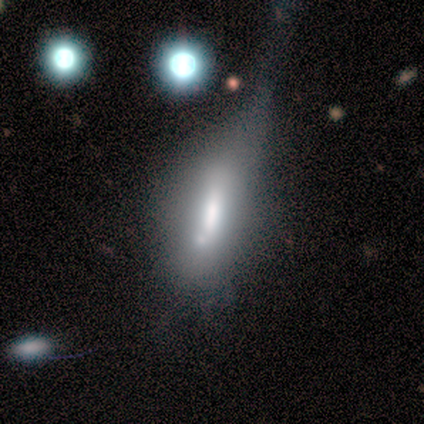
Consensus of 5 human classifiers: smooth 60%, star or artifact 40%, featured or disk 0%. Down the decision tree: how rounded — in between (67%); merging — none (33%, tied with major disturbance and merger).